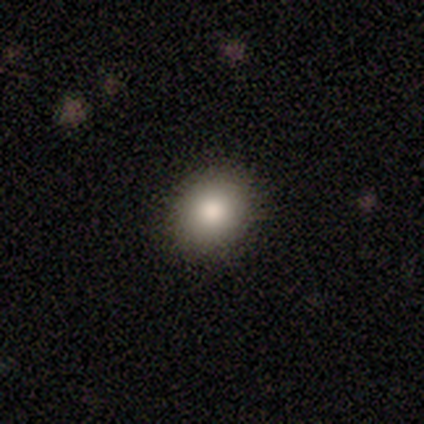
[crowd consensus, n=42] A smooth galaxy with no disk features (81%) that is round (74%). Merging: none (91%).